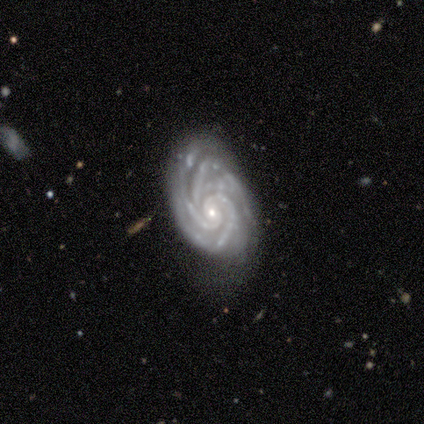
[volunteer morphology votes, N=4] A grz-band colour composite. It shows a featured or disk galaxy (100%) with no bar (75%), 4 (75%) tight (100%) spiral arms (100%) and a small central bulge (75%). Merging: none (50%).